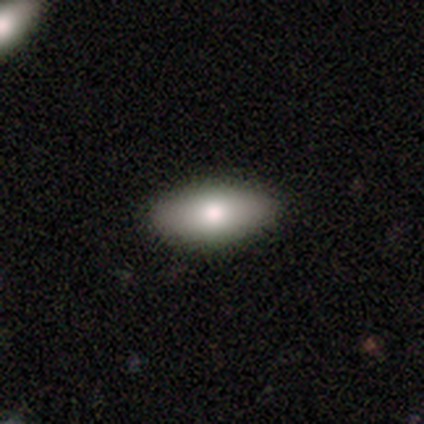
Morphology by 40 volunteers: smooth_or_featured: smooth (p=0.88) [alt: featured or disk p=0.07]
how_rounded: in between (p=0.86) [alt: cigar-shaped p=0.14]
merging: none (p=0.61) [alt: minor disturbance p=0.03]